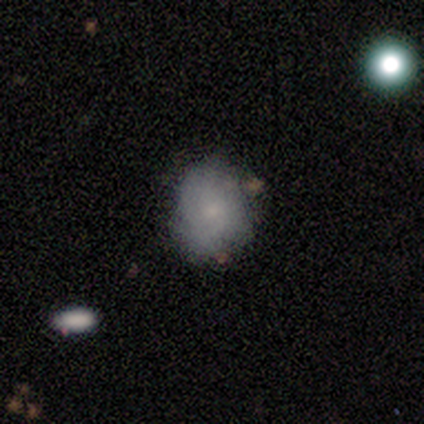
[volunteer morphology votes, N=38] smooth_or_featured: smooth (p=0.53) [alt: featured or disk p=0.39]
how_rounded: round (p=0.60) [alt: in between p=0.40]
merging: none (p=0.71) [alt: minor disturbance p=0.20]